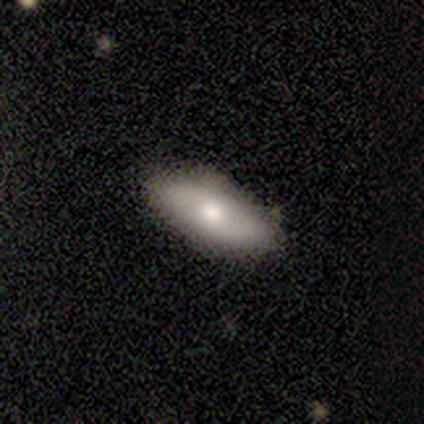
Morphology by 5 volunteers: This appears to be a smooth galaxy with no disk features (60%) that is in between round and cigar-shaped (100%). Merging: none (100%).